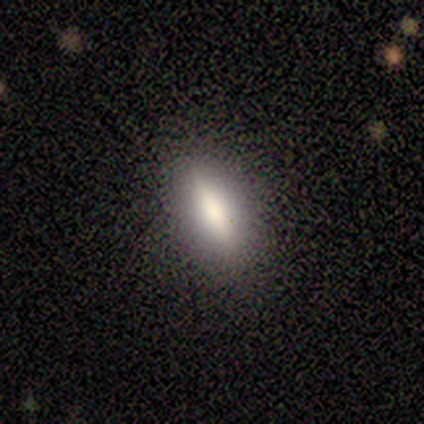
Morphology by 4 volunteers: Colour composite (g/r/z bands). It shows a featured or disk galaxy (75%) viewed edge-on (100%) with a rounded central bulge (67%). Merging: none (100%).